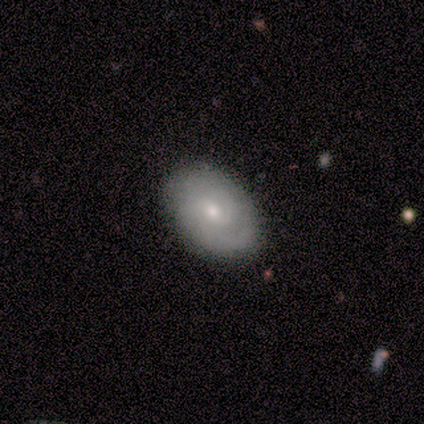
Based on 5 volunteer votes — Overall: featured or disk (60%; smooth 40%). Edge-on disk: no (67%; yes 33%). Bar: weak (50%, tied with no). Spiral arms: yes (100%). Spiral arm count: 2 (50%, tied with can't tell). Spiral winding: medium (100%). Bulge size: moderate (50%, tied with small). Merging: none (80%).